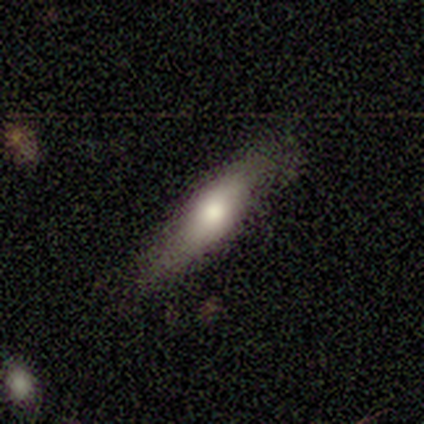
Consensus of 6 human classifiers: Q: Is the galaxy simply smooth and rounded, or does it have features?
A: smooth — 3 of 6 (50%, tied with featured or disk).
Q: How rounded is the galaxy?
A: cigar-shaped — 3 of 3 (100%).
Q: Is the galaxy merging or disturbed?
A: none — 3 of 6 (50%, tied with minor disturbance).